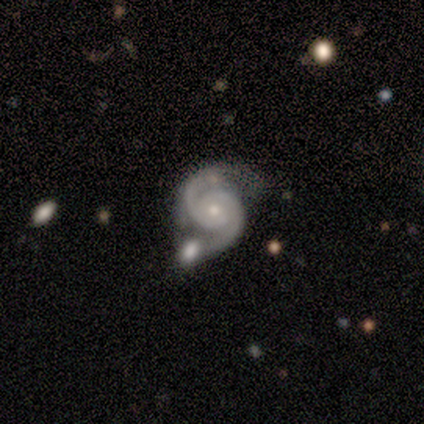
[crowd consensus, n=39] Morphology: type=featured or disk (92%); edge-on=no (94%); bar=no (59%); spiral arms=yes (100%); winding=tight (47%, tied with medium); arm count=2 (97%); bulge=small (68%); merging=none (47%).